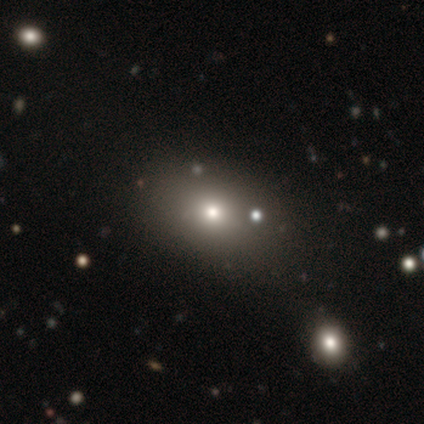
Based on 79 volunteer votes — This is likely a smooth galaxy (68%). How rounded: likely in between (74%). Merging: marginally none (43%).